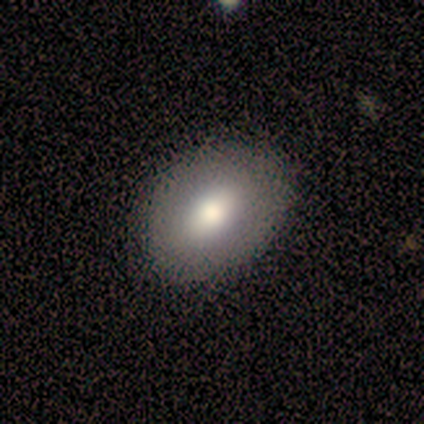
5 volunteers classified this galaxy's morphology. Smooth or featured: smooth — 60% (featured or disk — 40%)
How rounded: round — 67% (in between — 33%)
Merging: none — 80% (minor disturbance — 20%)